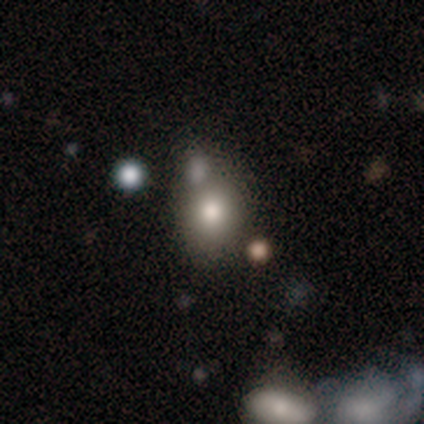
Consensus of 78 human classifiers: Smooth or featured: smooth — 76% (star or artifact — 13%)
How rounded: round — 61% (in between — 39%)
Merging: merger — 40% (none — 37%)